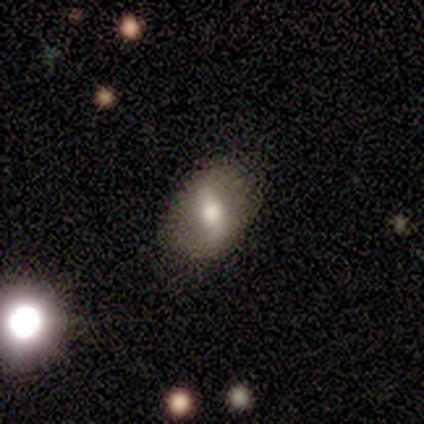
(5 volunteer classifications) This appears to be a smooth galaxy with no disk features (60%) that is in between round and cigar-shaped (100%). Merging: none (100%).